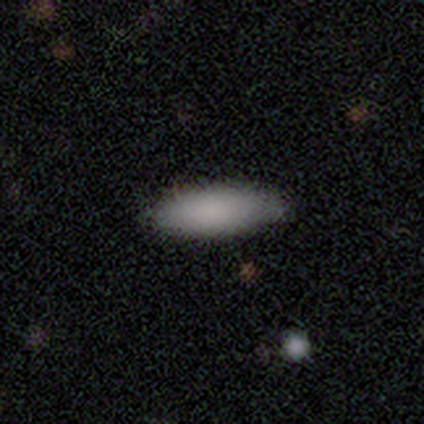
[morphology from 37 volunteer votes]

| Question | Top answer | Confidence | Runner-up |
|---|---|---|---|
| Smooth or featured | smooth | 92% | star or artifact (5%) |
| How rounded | in between | 56% | cigar-shaped (44%) |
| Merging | none | 100% | — |